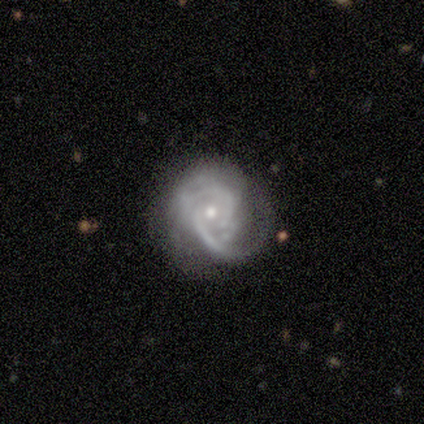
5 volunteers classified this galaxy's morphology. smooth_or_featured: featured or disk (p=0.80) [alt: star or artifact p=0.20]
disk_edge_on: no (p=1.00)
bar: no (p=1.00)
has_spiral_arms: yes (p=0.75) [alt: no p=0.25]
spiral_winding: medium (p=1.00)
spiral_arm_count: can't tell (p=0.67) [alt: 2 p=0.33]
bulge_size: small (p=0.75) [alt: moderate p=0.25]
merging: none (p=0.50) [alt: minor disturbance p=0.25]